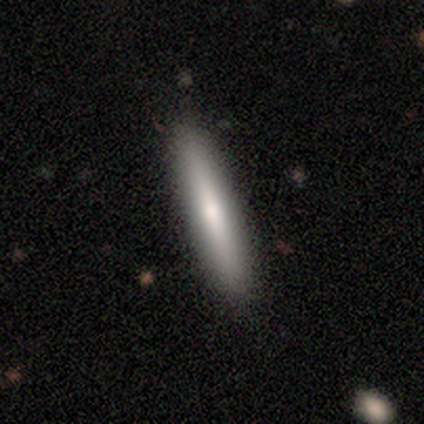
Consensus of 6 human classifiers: This appears to be a featured or disk galaxy (83%) viewed edge-on (100%) with a rounded central bulge (60%). Merging: none (83%).